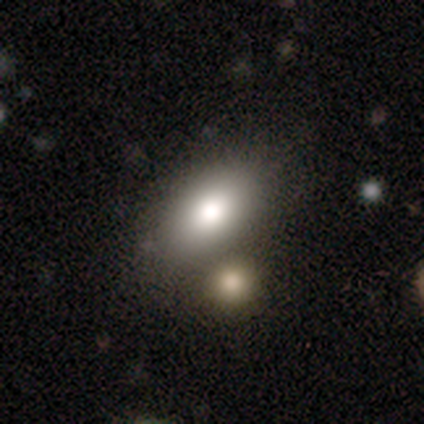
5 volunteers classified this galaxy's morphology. Q: Smooth or featured?
A: smooth (100%)
Q: How rounded?
A: in between (80%); runner-up: cigar-shaped (20%)
Q: Merging?
A: none (40%); tied with: minor disturbance (40%)